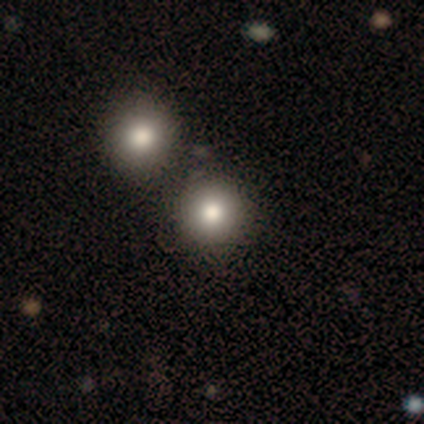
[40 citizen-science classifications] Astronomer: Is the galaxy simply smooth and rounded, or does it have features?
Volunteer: smooth — 82%.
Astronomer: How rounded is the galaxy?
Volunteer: round — 100%.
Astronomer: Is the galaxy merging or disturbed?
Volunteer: none — 65%.